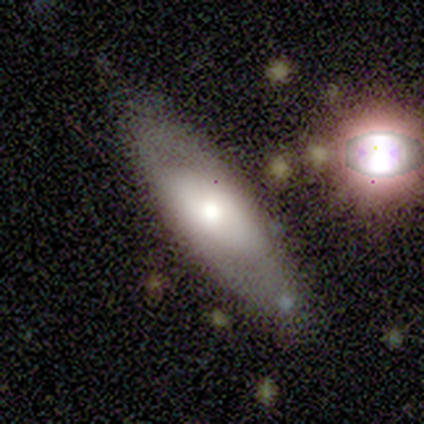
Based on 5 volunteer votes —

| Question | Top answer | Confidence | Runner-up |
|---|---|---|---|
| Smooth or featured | featured or disk | 60% | smooth (40%) |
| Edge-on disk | no | 67% | yes (33%) |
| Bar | no | 100% | — |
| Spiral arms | no | 100% | — |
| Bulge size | moderate | 100% | — |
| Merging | none | 40% | tied: minor disturbance (40%) |